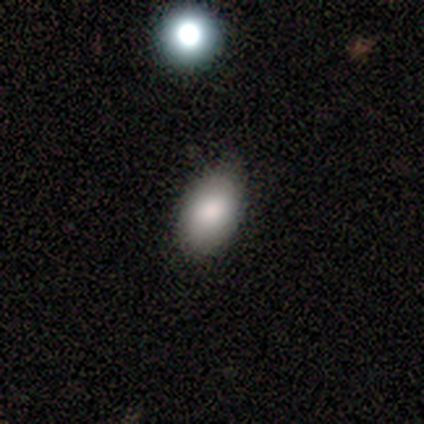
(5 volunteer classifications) Smooth or featured? smooth (100%)
How rounded? in between (100%)
Merging? none (100%)